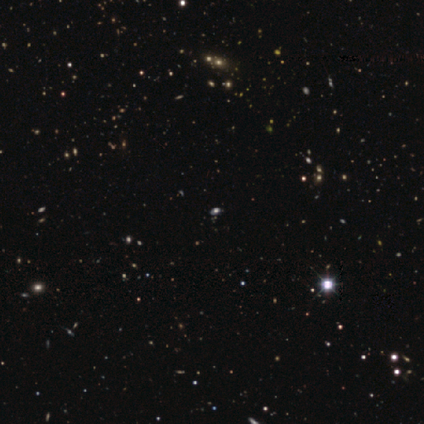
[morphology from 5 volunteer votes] Overall: star or artifact (80%).